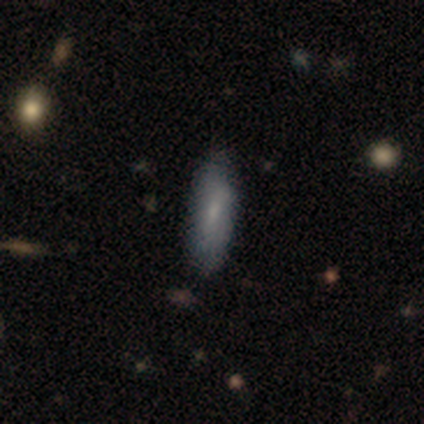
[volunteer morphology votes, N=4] type=smooth (100%); roundness=in between (50%, tied with cigar-shaped); merging=none (75%).